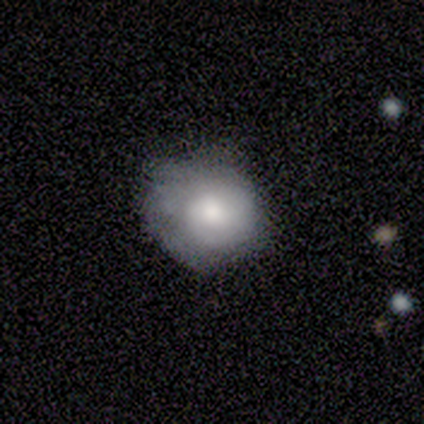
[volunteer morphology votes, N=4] This is possibly a smooth galaxy (50%, tied with featured or disk). How rounded: clearly round (100%). Merging: likely none (75%).